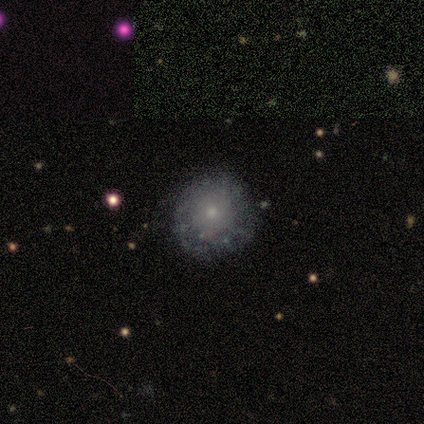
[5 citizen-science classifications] A smooth galaxy with no disk features (40%, tied with featured or disk) that is round (50%, tied with in between).

Vote fractions:
- Smooth or featured? smooth: 40% (tied) / featured or disk: 40% (tied) / star or artifact: 20%
- How rounded? round: 50% (tied) / in between: 50% (tied) / cigar-shaped: 0%
- Merging? none: 100% / minor disturbance: 0% / major disturbance: 0% / merger: 0%